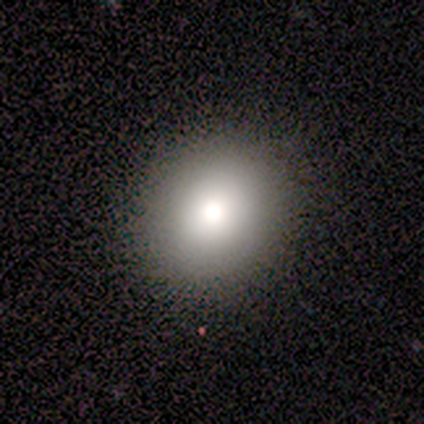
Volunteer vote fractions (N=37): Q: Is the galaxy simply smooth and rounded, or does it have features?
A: smooth — 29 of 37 (78%).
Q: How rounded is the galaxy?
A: round — 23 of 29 (79%).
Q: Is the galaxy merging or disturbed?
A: none — 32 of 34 (94%).